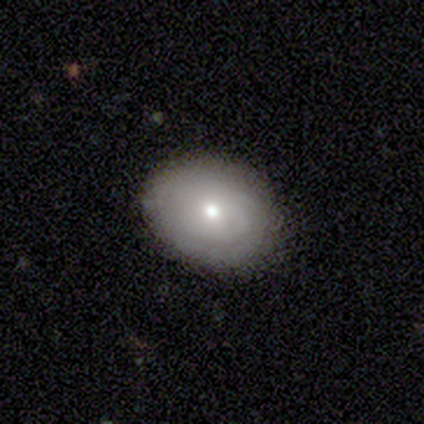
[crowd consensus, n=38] Smooth or featured: smooth — 45% (tied with featured or disk — 45%)
How rounded: in between — 59% (round — 41%)
Merging: none — 94% (minor disturbance — 3%)